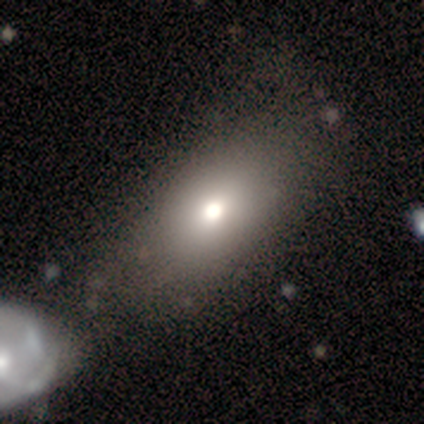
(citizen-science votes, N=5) Q: Smooth or featured?
A: smooth (80%); runner-up: featured or disk (20%)
Q: How rounded?
A: in between (75%); runner-up: round (25%)
Q: Merging?
A: none (60%); runner-up: minor disturbance (20%)